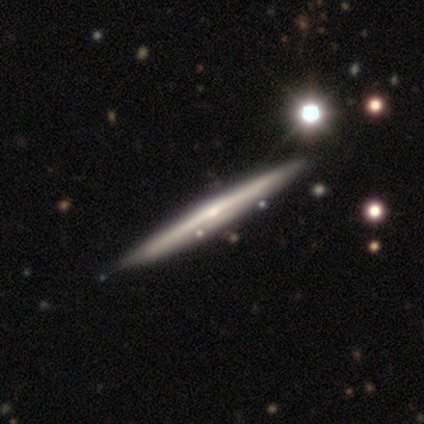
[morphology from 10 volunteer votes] This is clearly a featured or disk galaxy (80%). It is clearly viewed edge-on (100%). Edge-on bulge: likely rounded (75%). Merging: clearly none (80%).